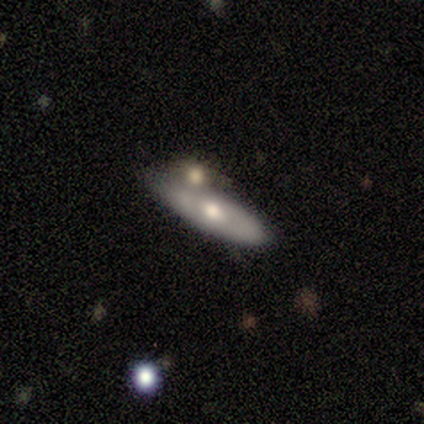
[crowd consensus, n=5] Q: Smooth or featured?
A: featured or disk (60%); runner-up: smooth (20%)
Q: Edge-on disk?
A: no (67%); runner-up: yes (33%)
Q: Bar?
A: no (100%)
Q: Spiral arms?
A: yes (50%); tied with: no (50%)
Q: Spiral winding?
A: loose (100%)
Q: Spiral arm count?
A: 2 (100%)
Q: Bulge size?
A: large (50%); tied with: moderate (50%)
Q: Merging?
A: merger (75%); runner-up: none (25%)